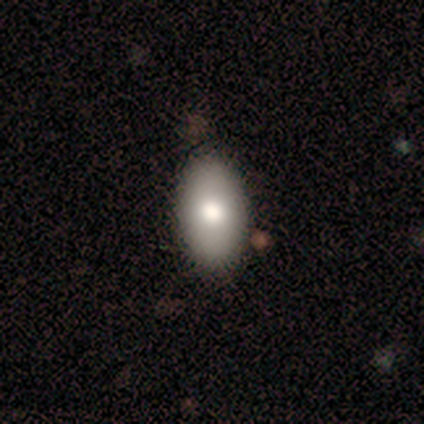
smooth-or-featured: smooth: 100% | featured or disk: 0% | star or artifact: 0%
  how-rounded: in between: 100% | round: 0% | cigar-shaped: 0%
  merging: none: 83% | minor disturbance: 17% | major disturbance: 0% | merger: 0%